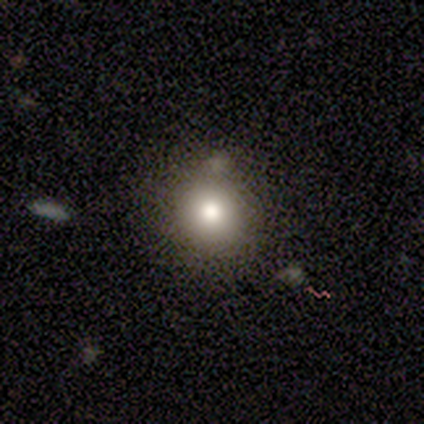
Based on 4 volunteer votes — A smooth galaxy with no disk features (50%, tied with star or artifact) that is round (100%).

Vote fractions:
- Smooth or featured? smooth: 50% (tied) / star or artifact: 50% (tied) / featured or disk: 0%
- How rounded? round: 100% / in between: 0% / cigar-shaped: 0%
- Merging? none: 100% / minor disturbance: 0% / major disturbance: 0% / merger: 0%